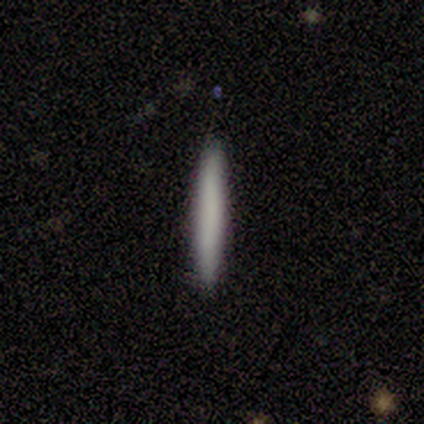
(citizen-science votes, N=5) Smooth or featured: smooth — 60% (featured or disk — 20%)
How rounded: cigar-shaped — 100%
Merging: none — 100%